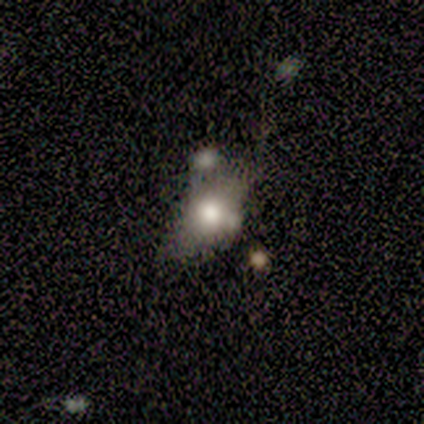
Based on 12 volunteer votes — Q: Smooth or featured?
A: smooth (75%); runner-up: featured or disk (25%)
Q: How rounded?
A: in between (89%); runner-up: round (11%)
Q: Merging?
A: none (50%); runner-up: minor disturbance (17%)